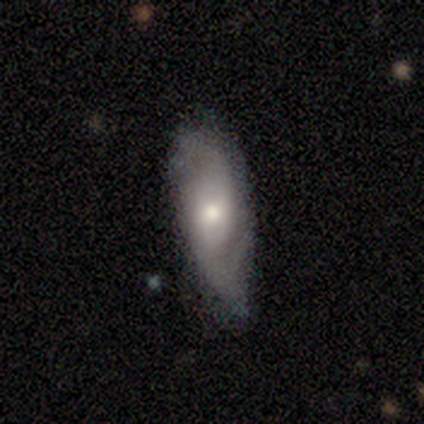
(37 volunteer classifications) This appears to be a featured or disk galaxy (65%) with no bar (68%), 2 (71%) medium (59%) spiral arms (77%) and a moderate central bulge (77%). Merging: minor disturbance (51%).